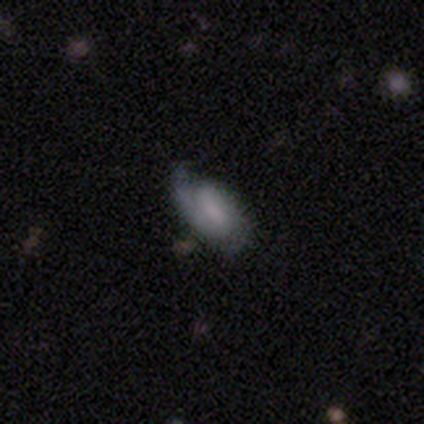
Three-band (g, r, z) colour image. It shows a featured or disk galaxy (80%) with a weak bar (75%), 2 (100%) medium (100%) spiral arms (50%, tied with no) and no central bulge (50%). Merging: none (60%).